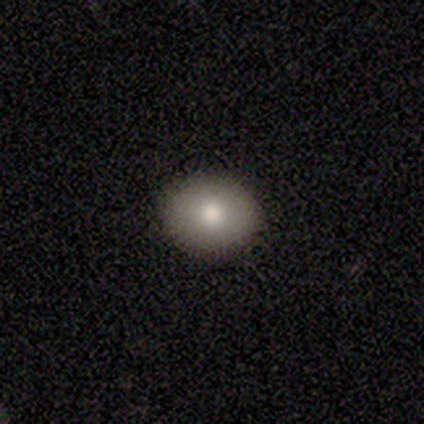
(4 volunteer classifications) smooth_or_featured: smooth (p=0.75) [alt: featured or disk p=0.25]
how_rounded: round (p=0.67) [alt: in between p=0.33]
merging: none (p=0.75) [alt: major disturbance p=0.25]